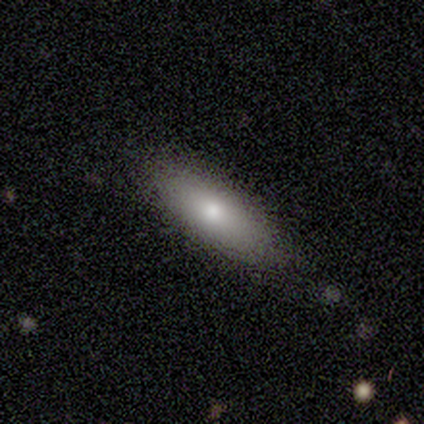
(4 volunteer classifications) Overall: smooth (100%). How rounded: in between (75%). Merging: none (100%).